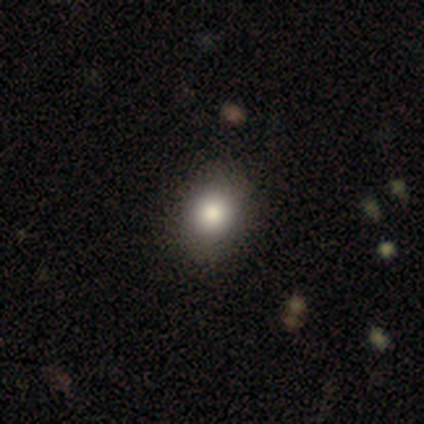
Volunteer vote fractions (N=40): Smooth or featured: smooth — 82% (star or artifact — 10%)
How rounded: round — 52% (in between — 48%)
Merging: none — 92% (minor disturbance — 8%)